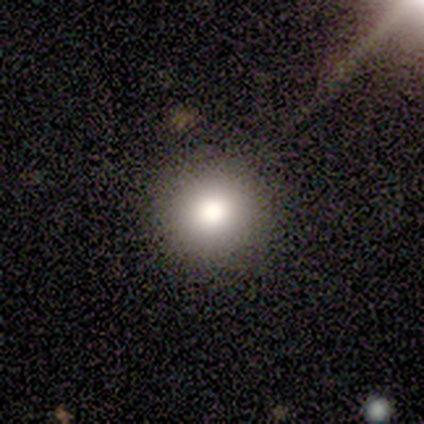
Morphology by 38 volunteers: smooth 82%, featured or disk 11%, star or artifact 8%. Down the decision tree: how rounded — round (97%); merging — none (94%).